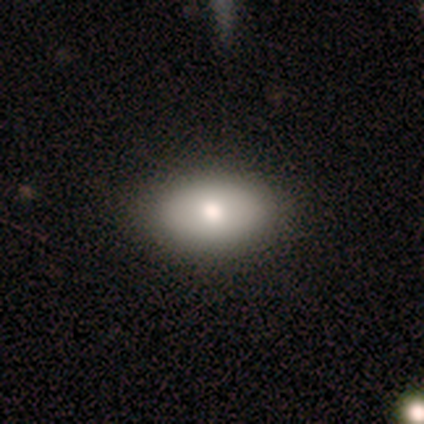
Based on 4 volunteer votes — Q: Smooth or featured?
A: smooth (75%); runner-up: featured or disk (25%)
Q: How rounded?
A: in between (100%)
Q: Merging?
A: none (75%); runner-up: minor disturbance (25%)